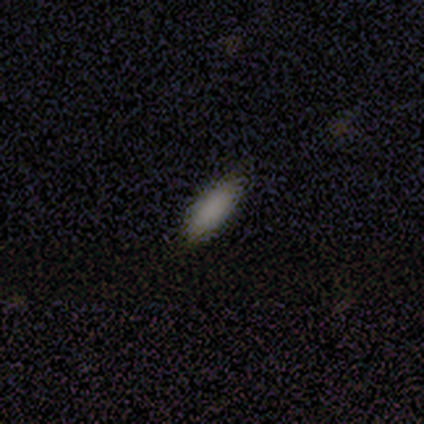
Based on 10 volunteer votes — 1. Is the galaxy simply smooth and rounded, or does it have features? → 100% smooth, 0% featured or disk, 0% star or artifact.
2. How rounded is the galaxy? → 80% in between, 20% cigar-shaped, 0% round.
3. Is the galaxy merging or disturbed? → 100% none, 0% minor disturbance, 0% major disturbance, 0% merger.